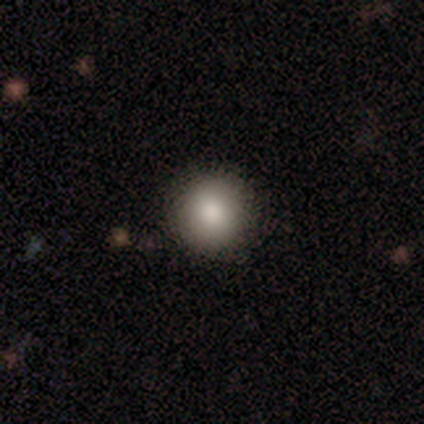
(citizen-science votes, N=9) smooth_or_featured: smooth (p=0.67) [alt: featured or disk p=0.22]
how_rounded: round (p=1.00)
merging: none (p=0.88) [alt: minor disturbance p=0.12]